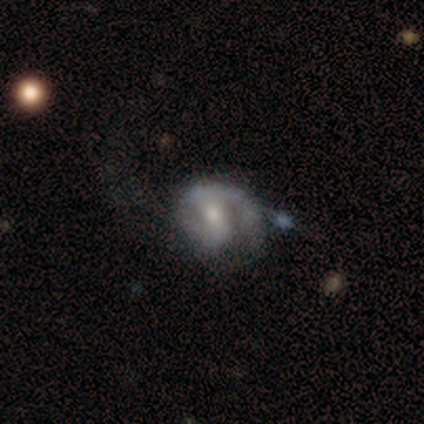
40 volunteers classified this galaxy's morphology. A featured or disk galaxy (82%) with a weak bar (55%), 2 (64%) medium (46%) spiral arms (85%) and a moderate central bulge (64%).

Vote fractions:
- Smooth or featured? featured or disk: 82% / smooth: 15% / star or artifact: 2%
- Edge-on disk? no: 100% / yes: 0%
- Bar? weak: 55% / no: 27% / strong: 18%
- Spiral arms? yes: 85% / no: 15%
- Spiral winding? medium: 46% / loose: 29% / tight: 25%
- Spiral arm count? 2: 64% / 1: 32% / can't tell: 4% / 3: 0% / 4: 0% / more than 4: 0%
- Bulge size? moderate: 64% / small: 33% / none: 3% / dominant: 0% / large: 0%
- Merging? none: 38% / minor disturbance: 36% / major disturbance: 23% / merger: 3%